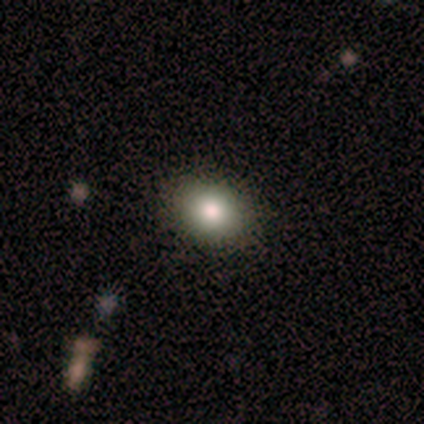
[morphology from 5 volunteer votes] A smooth galaxy with no disk features (100%) that is round (60%).

Vote fractions:
- Smooth or featured? smooth: 100% / featured or disk: 0% / star or artifact: 0%
- How rounded? round: 60% / in between: 40% / cigar-shaped: 0%
- Merging? none: 80% / minor disturbance: 20% / major disturbance: 0% / merger: 0%